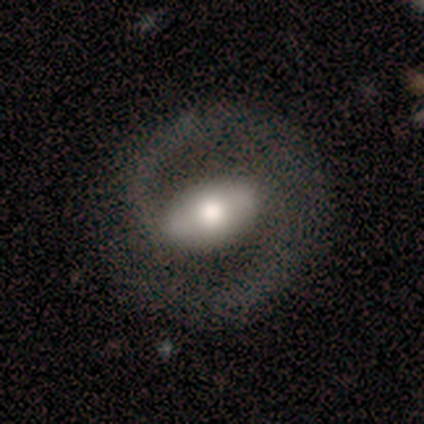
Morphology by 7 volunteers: Smooth or featured? 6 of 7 (86%) said featured or disk. Edge-on disk? 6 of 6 (100%) said no. Bar? 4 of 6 (67%) said strong. Spiral arms? 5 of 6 (83%) said yes. Spiral winding? 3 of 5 (60%) said tight. Spiral arm count? 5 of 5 (100%) said 2. Bulge size? 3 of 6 (50%) said moderate. Merging? 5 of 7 (71%) said none.